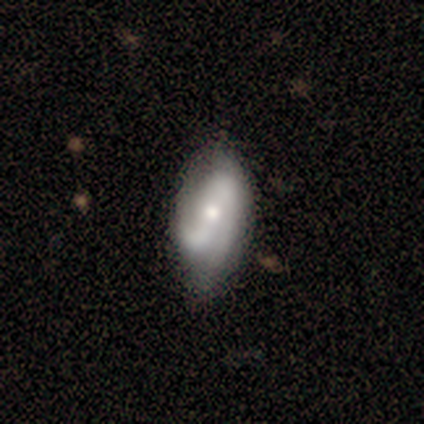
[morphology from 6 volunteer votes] type=featured or disk (67%); edge-on=no (100%); bar=weak (50%); spiral arms=yes (100%); winding=loose (75%); arm count=2 (75%); bulge=moderate (75%); merging=none (60%).